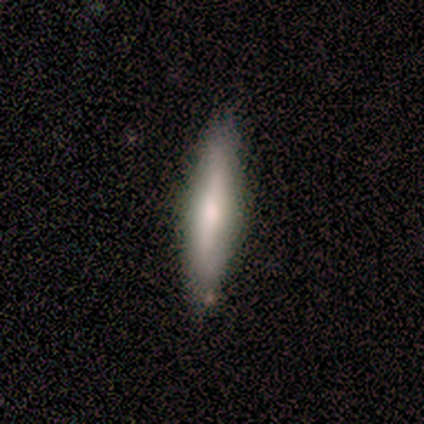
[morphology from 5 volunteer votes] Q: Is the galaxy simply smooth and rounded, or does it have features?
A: smooth — 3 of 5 (60%).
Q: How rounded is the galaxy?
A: cigar-shaped — 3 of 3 (100%).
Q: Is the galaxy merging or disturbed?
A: none — 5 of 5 (100%).